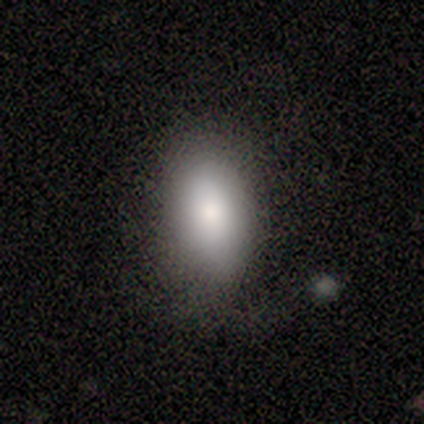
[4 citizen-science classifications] This is clearly a smooth galaxy (100%). How rounded: clearly in between (100%). Merging: clearly none (100%).